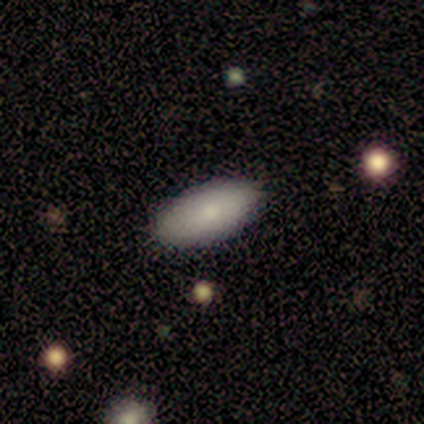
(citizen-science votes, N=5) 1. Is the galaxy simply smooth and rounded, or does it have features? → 80% smooth, 20% star or artifact, 0% featured or disk.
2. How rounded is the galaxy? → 100% in between, 0% round, 0% cigar-shaped.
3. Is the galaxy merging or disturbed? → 100% none, 0% minor disturbance, 0% major disturbance, 0% merger.